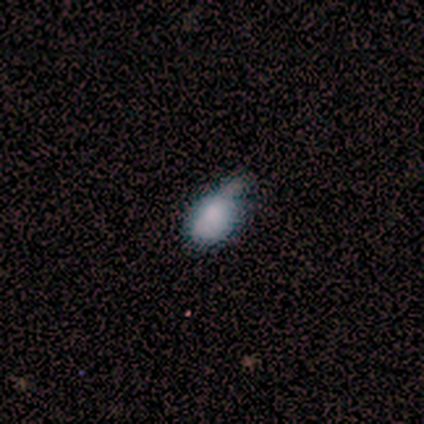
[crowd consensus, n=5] Smooth or featured?
  - smooth: 60% *
  - featured or disk: 20%
  - star or artifact: 20%
How rounded?
  - in between: 100% *
  - round: 0%
  - cigar-shaped: 0%
Merging?
  - none: 50% * (tied)
  - minor disturbance: 50% * (tied)
  - major disturbance: 0%
  - merger: 0%